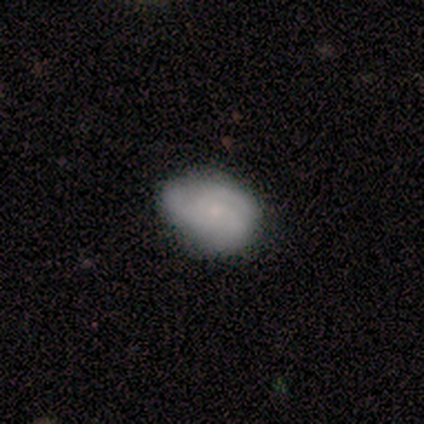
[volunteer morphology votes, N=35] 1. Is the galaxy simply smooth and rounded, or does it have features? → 57% smooth, 43% featured or disk, 0% star or artifact.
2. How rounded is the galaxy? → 80% in between, 20% round, 0% cigar-shaped.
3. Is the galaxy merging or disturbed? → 63% none, 34% minor disturbance, 3% major disturbance, 0% merger.